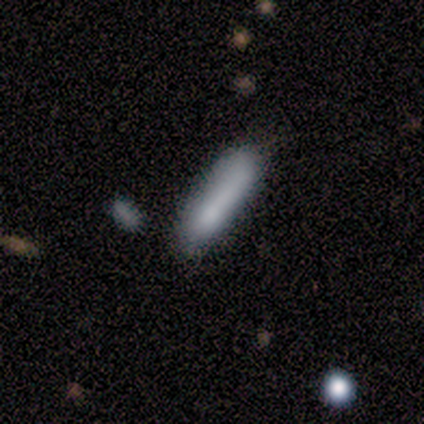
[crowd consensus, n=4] Smooth or featured?
  - smooth: 75% *
  - star or artifact: 25%
  - featured or disk: 0%
How rounded?
  - round: 33% * (tied)
  - in between: 33% * (tied)
  - cigar-shaped: 33% * (tied)
Merging?
  - minor disturbance: 67% *
  - none: 33%
  - major disturbance: 0%
  - merger: 0%